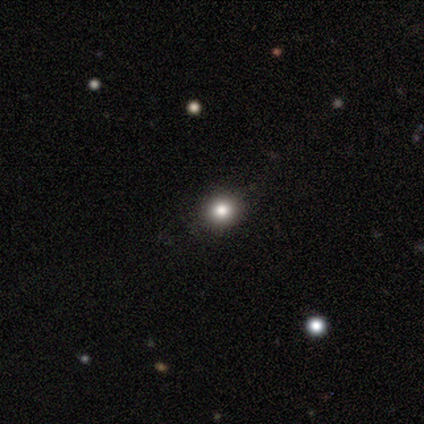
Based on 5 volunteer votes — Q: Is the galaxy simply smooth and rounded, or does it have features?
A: smooth — 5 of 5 (100%).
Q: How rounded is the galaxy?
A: round — 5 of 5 (100%).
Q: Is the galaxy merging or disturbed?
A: none — 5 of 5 (100%).